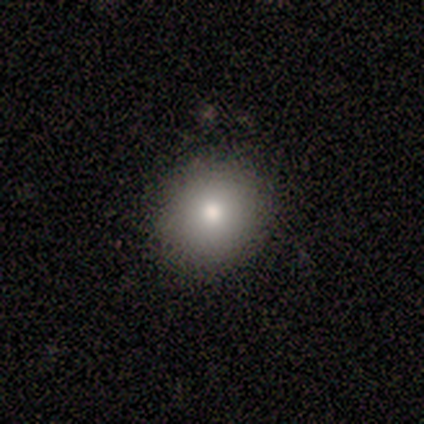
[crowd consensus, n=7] Smooth or featured?
  - smooth: 71% *
  - featured or disk: 14%
  - star or artifact: 14%
How rounded?
  - round: 80% *
  - in between: 20%
  - cigar-shaped: 0%
Merging?
  - none: 67% *
  - minor disturbance: 33%
  - major disturbance: 0%
  - merger: 0%